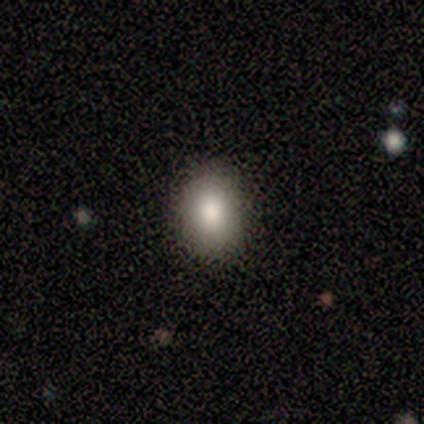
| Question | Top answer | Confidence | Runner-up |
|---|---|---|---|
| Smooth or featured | smooth | 80% | star or artifact (20%) |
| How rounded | in between | 100% | — |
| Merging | none | 75% | major disturbance (25%) |